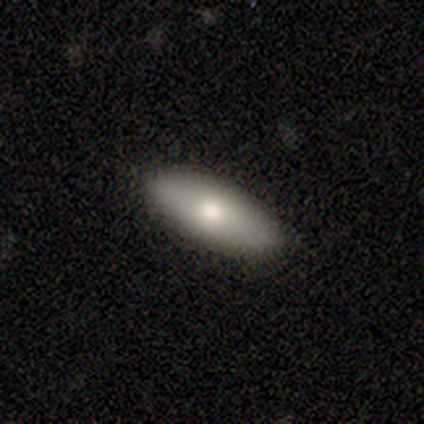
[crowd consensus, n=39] Q: Smooth or featured?
A: smooth (62%); runner-up: featured or disk (31%)
Q: How rounded?
A: in between (75%); runner-up: cigar-shaped (21%)
Q: Merging?
A: none (92%); runner-up: major disturbance (6%)